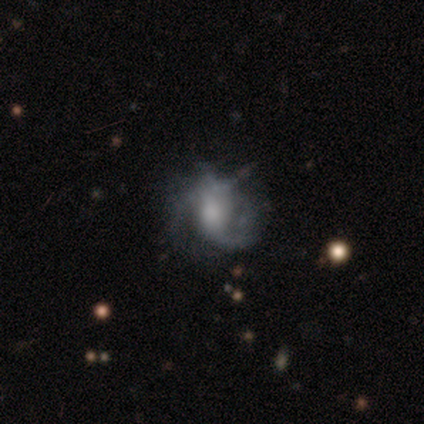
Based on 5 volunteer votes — featured or disk 100%, smooth 0%, star or artifact 0%. Down the decision tree: edge-on disk — no (100%); bar — no (80%); spiral arms — yes (100%); spiral arm count — 2 (60%); spiral winding — medium (60%); bulge size — large (40%, tied with moderate); merging — none (60%).